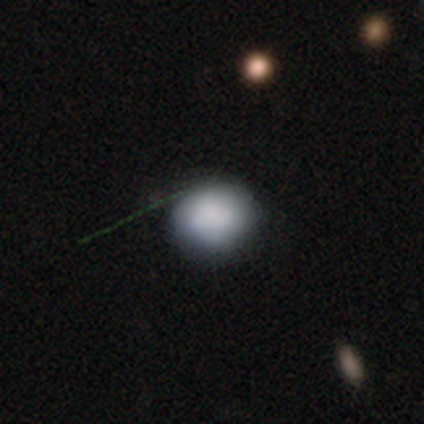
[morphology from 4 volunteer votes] A smooth galaxy with no disk features (100%) that is round (75%).

Vote fractions:
- Smooth or featured? smooth: 100% / featured or disk: 0% / star or artifact: 0%
- How rounded? round: 75% / in between: 25% / cigar-shaped: 0%
- Merging? none: 50% / minor disturbance: 25% / major disturbance: 25% / merger: 0%